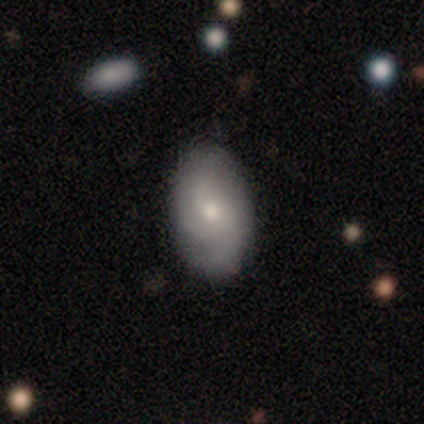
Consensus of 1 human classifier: smooth-or-featured: featured or disk: 100% | smooth: 0% | star or artifact: 0%
  disk-edge-on: no: 100% | yes: 0%
    bar: no: 100% | strong: 0% | weak: 0%
    has-spiral-arms: yes: 100% | no: 0%
      spiral-winding: loose: 100% | tight: 0% | medium: 0%
      spiral-arm-count: can't tell: 100% | 1: 0% | 2: 0% | 3: 0% | 4: 0% | more than 4: 0%
    bulge-size: small: 100% | dominant: 0% | large: 0% | moderate: 0% | none: 0%
  merging: none: 100% | minor disturbance: 0% | major disturbance: 0% | merger: 0%